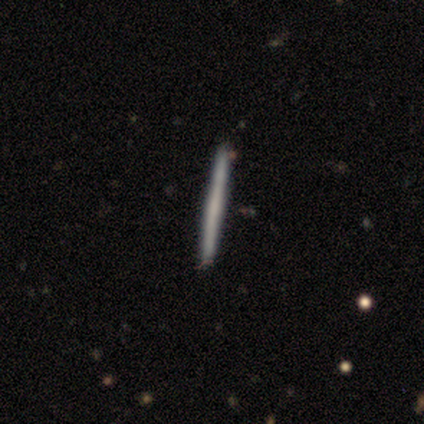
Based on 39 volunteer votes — Overall: smooth (51%; featured or disk 46%). How rounded: cigar-shaped (100%). Merging: none (74%).